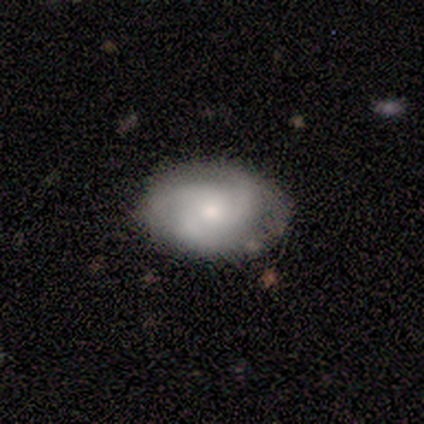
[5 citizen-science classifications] Overall: featured or disk (80%). Edge-on disk: no (100%). Bar: weak (50%, tied with no). Spiral arms: yes (100%). Spiral arm count: 3 (50%; 2 25%). Spiral winding: tight (75%). Bulge size: small (100%). Merging: none (75%).